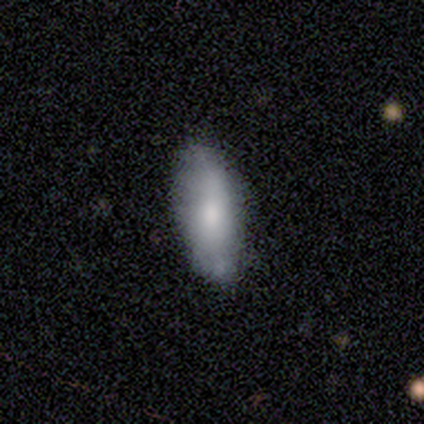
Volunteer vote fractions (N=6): This is clearly a smooth galaxy (83%). How rounded: clearly in between (80%). Merging: likely none (67%).